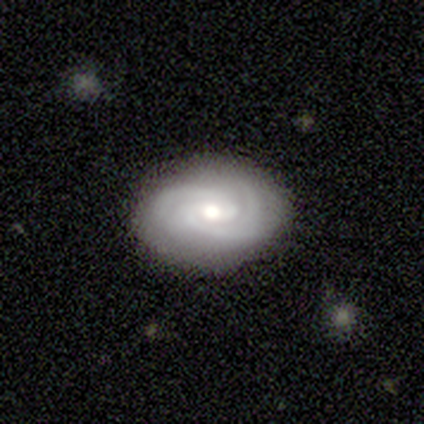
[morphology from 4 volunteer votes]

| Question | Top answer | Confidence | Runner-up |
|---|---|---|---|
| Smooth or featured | featured or disk | 75% | smooth (25%) |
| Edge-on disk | no | 100% | — |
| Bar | weak | 67% | no (33%) |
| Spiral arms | yes | 100% | — |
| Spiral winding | medium | 67% | tight (33%) |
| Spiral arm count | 2 | 100% | — |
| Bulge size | moderate | 67% | small (33%) |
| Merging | none | 100% | — |